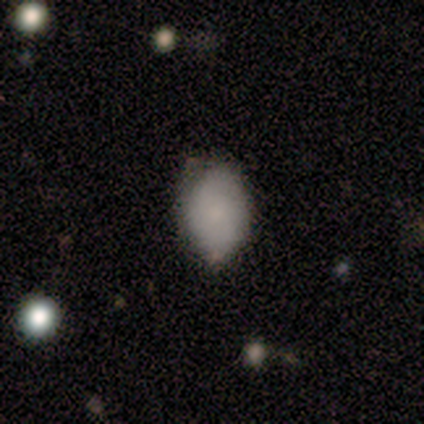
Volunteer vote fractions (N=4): This appears to be a smooth galaxy with no disk features (75%) that is in between round and cigar-shaped (100%). Merging: none (75%).